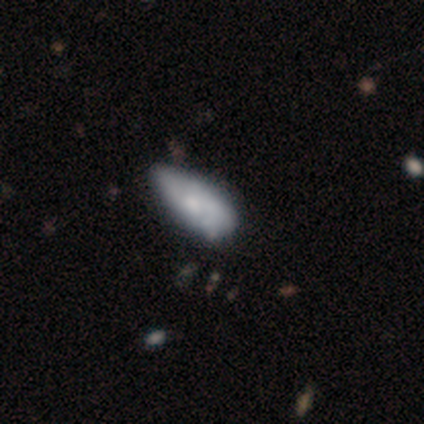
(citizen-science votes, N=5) Smooth or featured?
  - smooth: 60% *
  - featured or disk: 20%
  - star or artifact: 20%
How rounded?
  - in between: 100% *
  - round: 0%
  - cigar-shaped: 0%
Merging?
  - minor disturbance: 100% *
  - none: 0%
  - major disturbance: 0%
  - merger: 0%